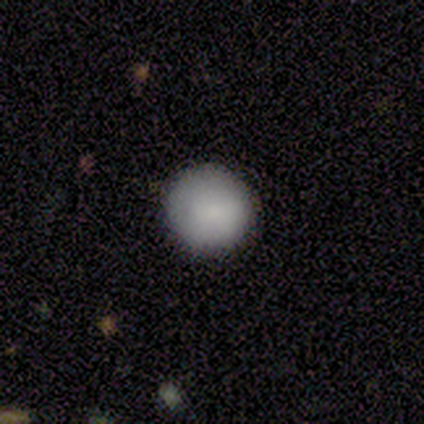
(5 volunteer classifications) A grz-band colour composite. It shows a smooth galaxy with no disk features (80%) that is round (100%). Merging: none (75%).